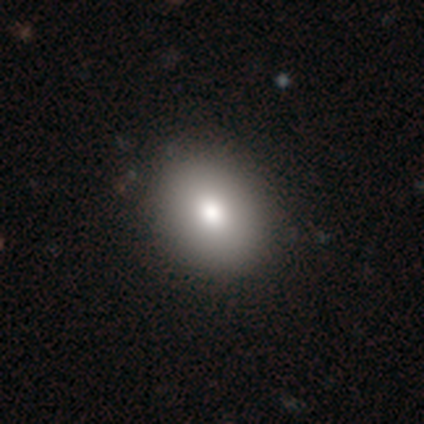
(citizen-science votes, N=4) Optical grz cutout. It shows a smooth galaxy with no disk features (75%) that is round (67%). Merging: none (100%).